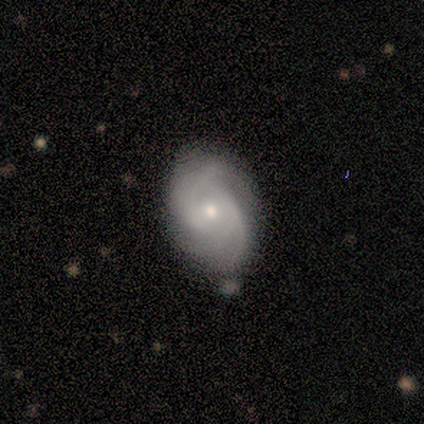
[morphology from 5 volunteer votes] smooth-or-featured: featured or disk: 100% | smooth: 0% | star or artifact: 0%
  disk-edge-on: no: 100% | yes: 0%
    bar: no: 60% | weak: 40% | strong: 0%
    has-spiral-arms: yes: 80% | no: 20%
      spiral-winding: tight: 75% | medium: 25% | loose: 0%
      spiral-arm-count: can't tell: 75% | 4: 25% | 1: 0% | 2: 0% | 3: 0% | more than 4: 0%
    bulge-size: moderate: 40% (tied) | small: 40% (tied) | dominant: 20% | large: 0% | none: 0%
  merging: none: 80% | major disturbance: 20% | minor disturbance: 0% | merger: 0%